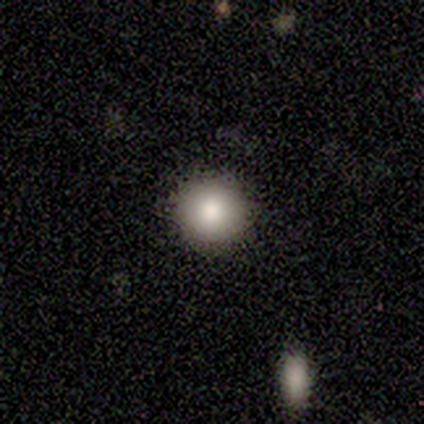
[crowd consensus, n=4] Q: Smooth or featured?
A: smooth (75%); runner-up: star or artifact (25%)
Q: How rounded?
A: round (100%)
Q: Merging?
A: none (100%)